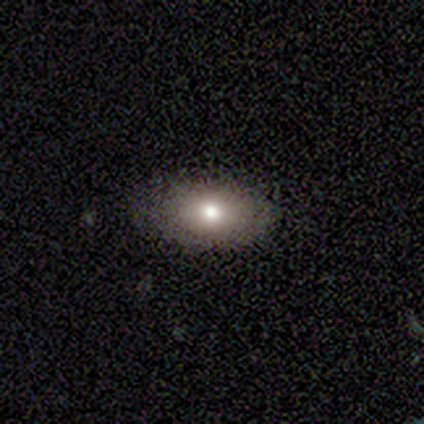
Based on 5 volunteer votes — Smooth or featured: smooth — 60% (featured or disk — 40%)
How rounded: in between — 67% (round — 33%)
Merging: none — 80% (minor disturbance — 20%)